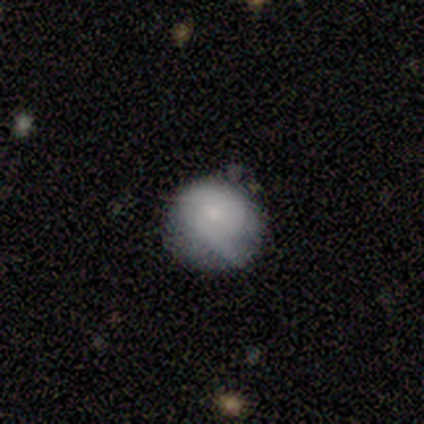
Q: Smooth or featured?
A: smooth (69%); runner-up: featured or disk (15%)
Q: How rounded?
A: round (100%)
Q: Merging?
A: minor disturbance (55%); runner-up: none (45%)